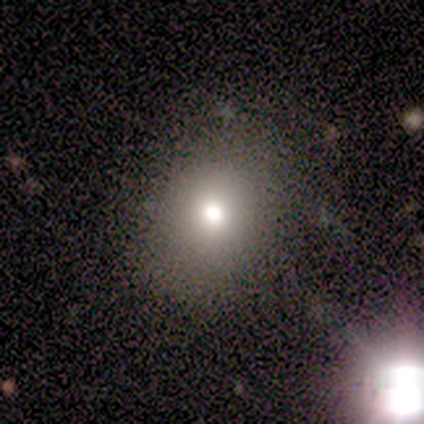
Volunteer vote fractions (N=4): Smooth or featured? smooth (75%)
How rounded? round (100%)
Merging? none (100%)